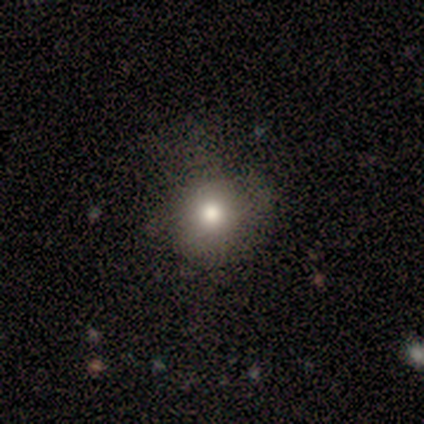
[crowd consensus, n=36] smooth_or_featured: smooth (p=0.81) [alt: star or artifact p=0.11]
how_rounded: round (p=0.93) [alt: in between p=0.07]
merging: none (p=0.84) [alt: major disturbance p=0.09]